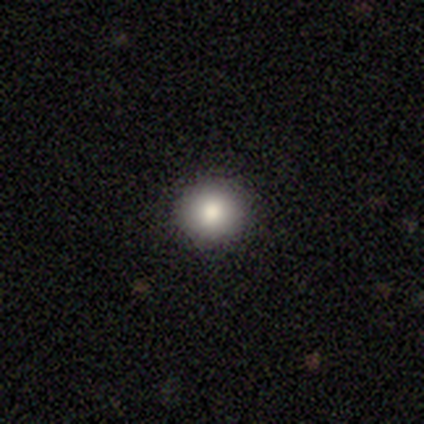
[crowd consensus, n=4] Overall: smooth (100%). How rounded: round (75%). Merging: none (100%).